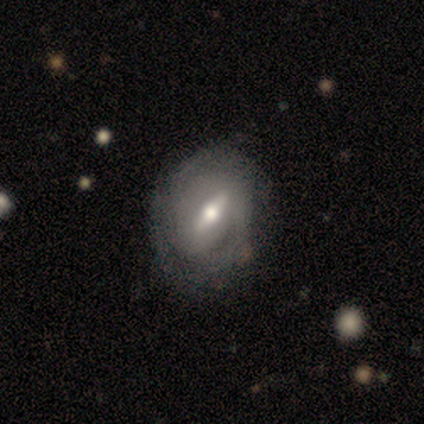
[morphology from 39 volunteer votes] This appears to be a featured or disk galaxy (62%) with a strong bar (78%), 2 (58%) medium (42%) spiral arms (67%) and a moderate central bulge (67%). Merging: none (73%).